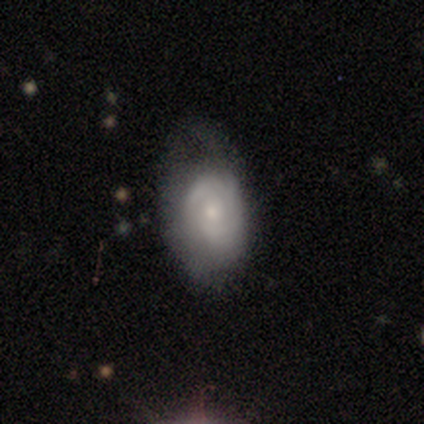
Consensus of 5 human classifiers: smooth-or-featured: featured or disk: 80% | star or artifact: 20% | smooth: 0%
  disk-edge-on: no: 100% | yes: 0%
    bar: no: 75% | weak: 25% | strong: 0%
    has-spiral-arms: yes: 100% | no: 0%
      spiral-winding: tight: 75% | medium: 25% | loose: 0%
      spiral-arm-count: 3: 50% (tied) | can't tell: 50% (tied) | 1: 0% | 2: 0% | 4: 0% | more than 4: 0%
    bulge-size: moderate: 75% | small: 25% | dominant: 0% | large: 0% | none: 0%
  merging: none: 50% | minor disturbance: 25% | major disturbance: 25% | merger: 0%